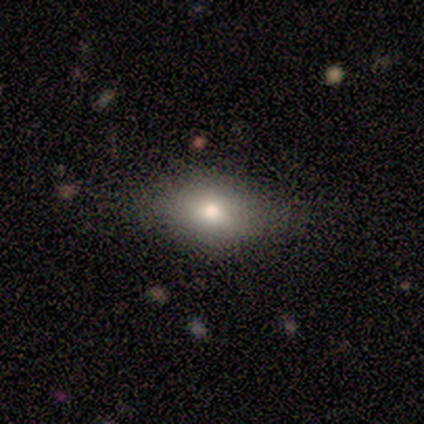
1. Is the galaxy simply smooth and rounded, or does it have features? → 100% smooth, 0% featured or disk, 0% star or artifact.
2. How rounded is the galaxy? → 80% in between, 20% round, 0% cigar-shaped.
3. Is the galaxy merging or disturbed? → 100% none, 0% minor disturbance, 0% major disturbance, 0% merger.